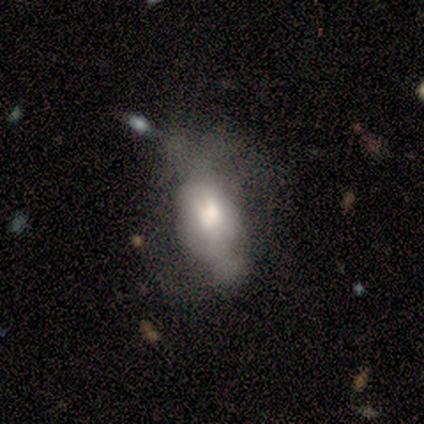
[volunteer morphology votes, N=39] Overall: smooth (46%; featured or disk 41%). How rounded: in between (89%). Merging: major disturbance (47%; minor disturbance 24%).